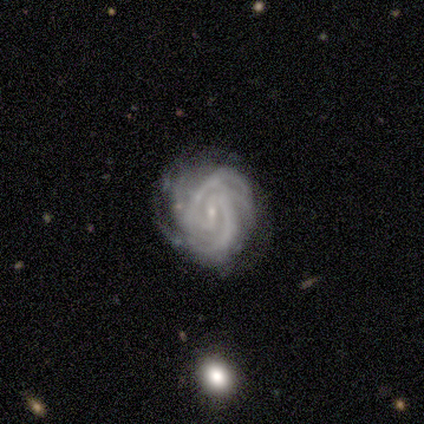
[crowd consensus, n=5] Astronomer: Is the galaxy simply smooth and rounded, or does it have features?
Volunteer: featured or disk — 100%.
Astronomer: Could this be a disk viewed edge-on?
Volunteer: no — 100%.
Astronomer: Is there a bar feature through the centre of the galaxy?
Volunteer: weak — 40%, tied with no at 40%.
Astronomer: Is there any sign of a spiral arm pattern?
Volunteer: yes — 100%.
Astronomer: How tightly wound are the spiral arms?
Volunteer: tight — 100%.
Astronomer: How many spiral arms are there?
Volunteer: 3 — 40%, tied with 4 at 40%.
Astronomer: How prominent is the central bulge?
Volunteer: small — 100%.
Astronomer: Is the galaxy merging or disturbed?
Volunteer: none — 60% (runner-up: minor disturbance, 40%).